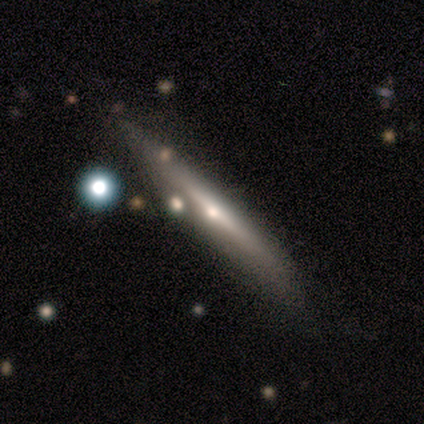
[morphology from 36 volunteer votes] A featured or disk galaxy (69%) viewed edge-on (96%) with a rounded central bulge (79%). Merging: none (70%).